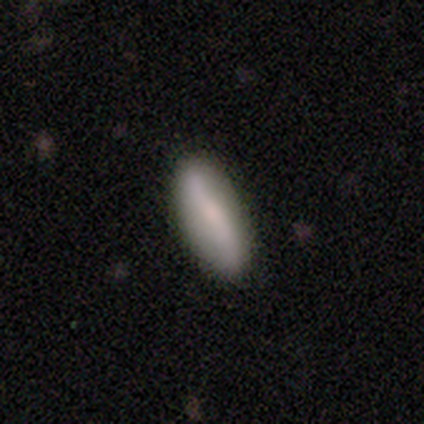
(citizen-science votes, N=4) smooth-or-featured: smooth: 75% | featured or disk: 25% | star or artifact: 0%
  how-rounded: cigar-shaped: 100% | round: 0% | in between: 0%
  merging: none: 50% (tied) | minor disturbance: 50% (tied) | major disturbance: 0% | merger: 0%